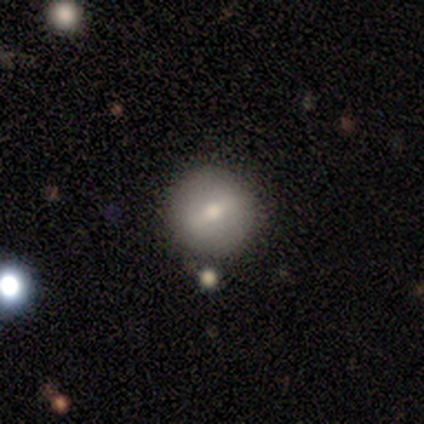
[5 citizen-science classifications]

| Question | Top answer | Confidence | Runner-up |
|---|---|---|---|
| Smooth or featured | smooth | 60% | featured or disk (40%) |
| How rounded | round | 100% | — |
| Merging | none | 80% | minor disturbance (20%) |